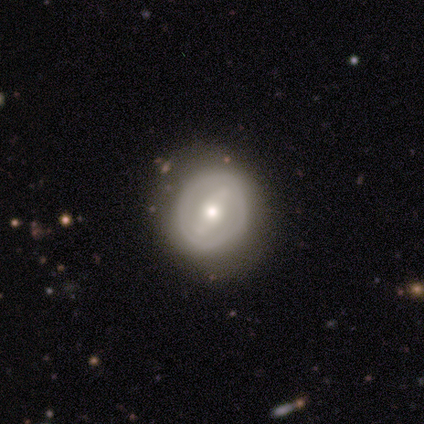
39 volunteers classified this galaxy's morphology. This appears to be a smooth galaxy with no disk features (49%, tied with featured or disk) that is round (95%). Merging: none (74%).